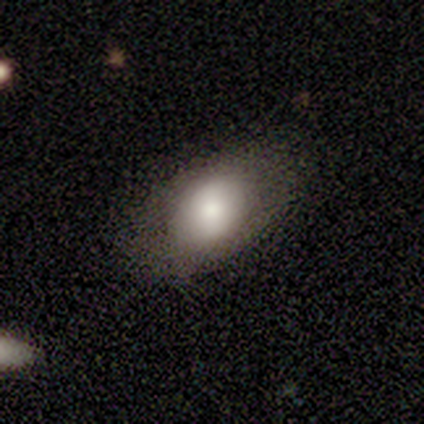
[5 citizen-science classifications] smooth 80%, featured or disk 20%, star or artifact 0%. Down the decision tree: how rounded — in between (100%); merging — none (100%).